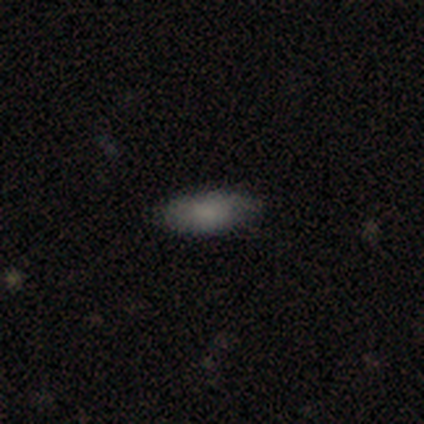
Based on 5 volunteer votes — Volunteers were most divided on "merging": none: 80%, major disturbance: 20%, minor disturbance: 0%, merger: 0%. More confident: smooth or featured — smooth (100%); how rounded — in between (100%).